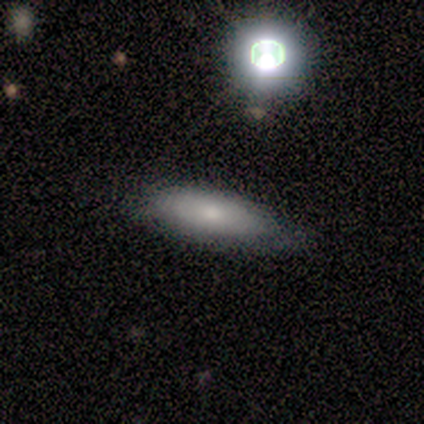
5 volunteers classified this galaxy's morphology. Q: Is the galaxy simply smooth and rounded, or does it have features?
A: featured or disk — 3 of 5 (60%).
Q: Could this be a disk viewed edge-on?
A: no — 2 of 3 (67%).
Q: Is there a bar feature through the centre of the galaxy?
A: no — 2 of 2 (100%).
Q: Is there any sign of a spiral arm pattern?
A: yes — 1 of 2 (50%, tied with no).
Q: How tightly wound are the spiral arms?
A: tight — 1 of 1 (100%).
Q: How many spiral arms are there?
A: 1 — 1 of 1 (100%).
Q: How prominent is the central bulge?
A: small — 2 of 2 (100%).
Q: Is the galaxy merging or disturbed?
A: none — 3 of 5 (60%).